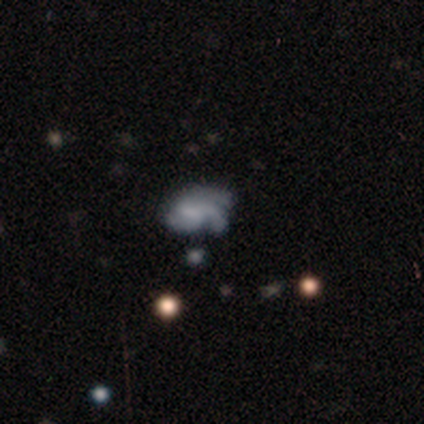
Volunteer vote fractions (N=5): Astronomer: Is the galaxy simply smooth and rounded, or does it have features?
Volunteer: featured or disk — 100%.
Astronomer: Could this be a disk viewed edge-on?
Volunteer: no — 100%.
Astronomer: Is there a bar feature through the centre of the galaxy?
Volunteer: weak — 80%.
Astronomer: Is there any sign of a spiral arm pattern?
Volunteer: yes — 100%.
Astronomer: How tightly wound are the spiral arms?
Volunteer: medium — 60% (runner-up: tight, 40%).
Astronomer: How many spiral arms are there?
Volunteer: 3 — 60%.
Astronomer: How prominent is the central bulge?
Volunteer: large — 40% (runner-up: moderate, 20%).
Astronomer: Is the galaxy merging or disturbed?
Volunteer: none — 60%.